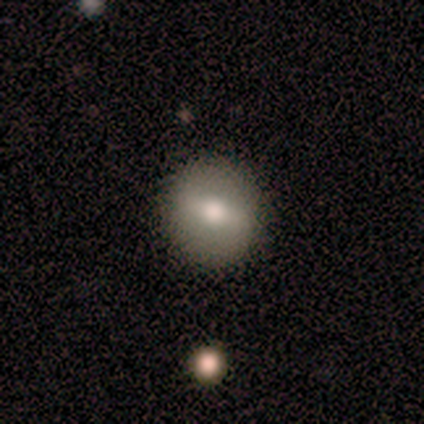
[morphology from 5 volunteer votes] type=smooth (40%, tied with featured or disk); roundness=round (100%); merging=none (100%).